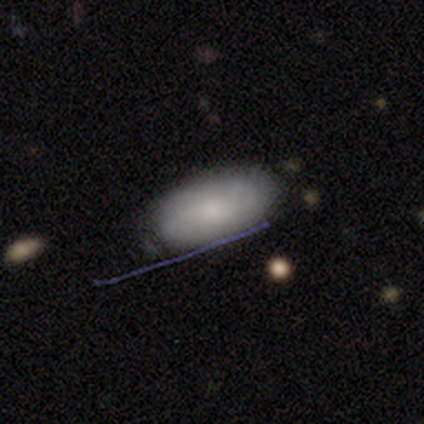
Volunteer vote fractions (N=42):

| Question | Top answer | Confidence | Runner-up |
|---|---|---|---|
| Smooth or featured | smooth | 67% | featured or disk (21%) |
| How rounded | in between | 100% | — |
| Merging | none | 68% | minor disturbance (27%) |